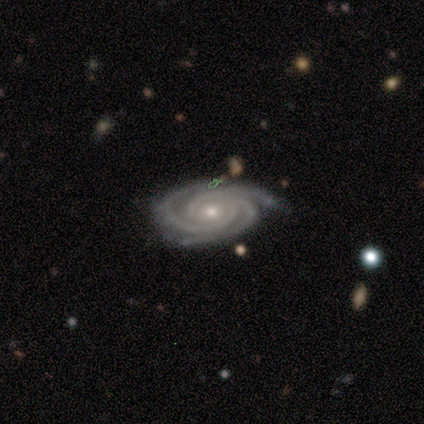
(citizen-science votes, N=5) Smooth or featured? 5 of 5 (100%) said featured or disk. Edge-on disk? 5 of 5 (100%) said no. Bar? 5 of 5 (100%) said no. Spiral arms? 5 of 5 (100%) said yes. Spiral winding? 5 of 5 (100%) said tight. Spiral arm count? 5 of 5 (100%) said 3. Bulge size? 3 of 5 (60%) said small. Merging? 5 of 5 (100%) said none.